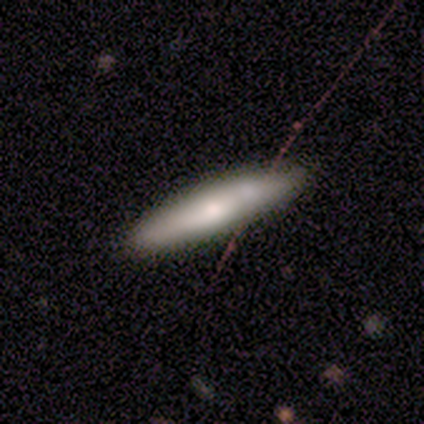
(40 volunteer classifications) Q: Smooth or featured?
A: smooth (57%); runner-up: featured or disk (35%)
Q: How rounded?
A: cigar-shaped (87%); runner-up: in between (13%)
Q: Merging?
A: none (81%); runner-up: minor disturbance (14%)